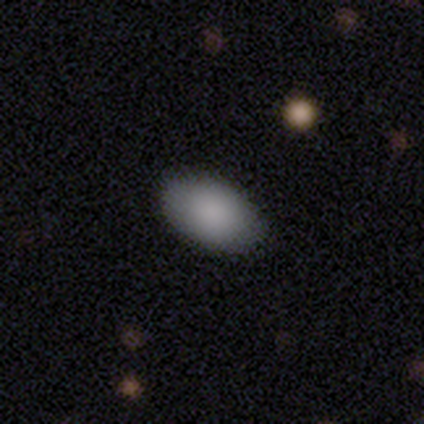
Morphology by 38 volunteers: Q: Smooth or featured?
A: smooth (87%); runner-up: star or artifact (8%)
Q: How rounded?
A: in between (91%); runner-up: round (9%)
Q: Merging?
A: none (91%); runner-up: major disturbance (6%)